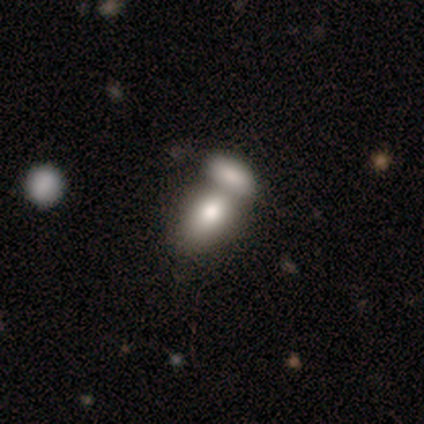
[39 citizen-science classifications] This is likely a smooth galaxy (77%). How rounded: clearly in between (87%). Merging: likely merger (79%).